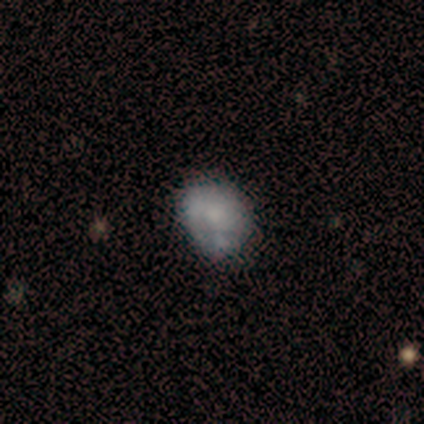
This is clearly a featured or disk galaxy (80%). It is clearly not viewed edge-on (100%). Bar: clearly no (100%). Spiral arm pattern: likely no (75%). Central bulge: likely moderate (75%). Merging: likely none (60%).